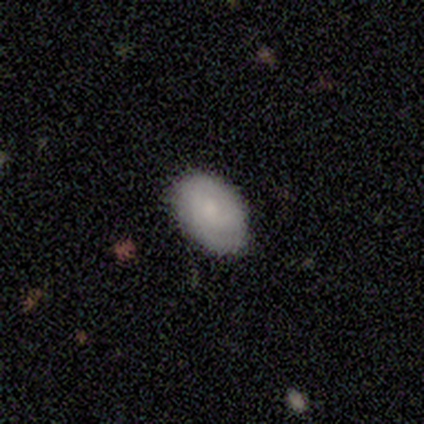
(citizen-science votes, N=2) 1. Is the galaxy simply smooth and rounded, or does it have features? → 50% smooth (tied), 50% featured or disk (tied), 0% star or artifact.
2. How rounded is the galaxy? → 100% in between, 0% round, 0% cigar-shaped.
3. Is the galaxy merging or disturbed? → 100% none, 0% minor disturbance, 0% major disturbance, 0% merger.